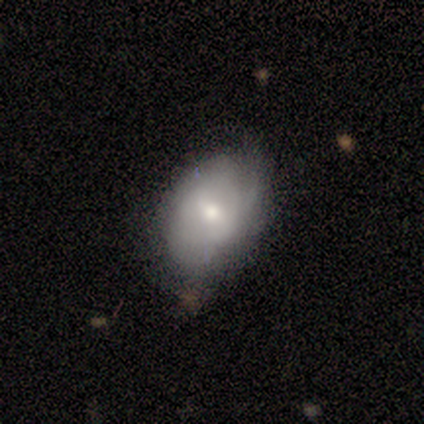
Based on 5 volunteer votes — Volunteers were most divided on "bar" (2-way tie): weak: 50%, no: 50%, strong: 0%; "spiral arms" (2-way tie): yes: 50%, no: 50%; "spiral winding" (2-way tie): medium: 50%, loose: 50%, tight: 0%. More confident: edge-on disk — no (100%); spiral arm count — 1 (100%); merging — none (100%); smooth or featured — featured or disk (80%); bulge size — moderate (75%).